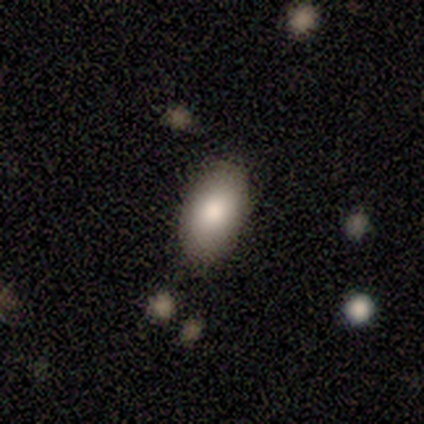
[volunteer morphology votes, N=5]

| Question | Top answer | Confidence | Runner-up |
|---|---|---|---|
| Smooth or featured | smooth | 60% | featured or disk (40%) |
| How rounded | in between | 100% | — |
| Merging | none | 80% | minor disturbance (20%) |